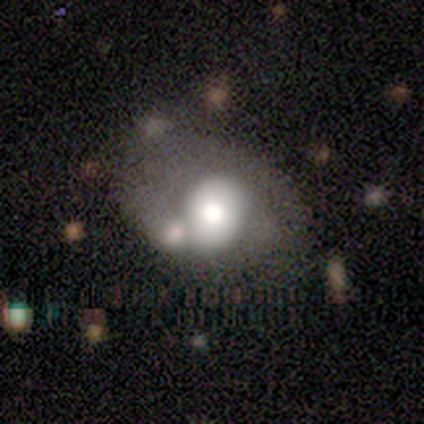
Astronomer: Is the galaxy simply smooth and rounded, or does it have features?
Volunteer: featured or disk — 75%.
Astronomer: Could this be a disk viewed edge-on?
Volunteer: no — 100%.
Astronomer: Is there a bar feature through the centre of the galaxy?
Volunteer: no — 67%.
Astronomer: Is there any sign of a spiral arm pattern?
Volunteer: no — 83%.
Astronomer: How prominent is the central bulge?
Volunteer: large — 50% (runner-up: small, 33%).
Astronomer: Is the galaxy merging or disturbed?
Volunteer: none — 38%, tied with merger at 38%.